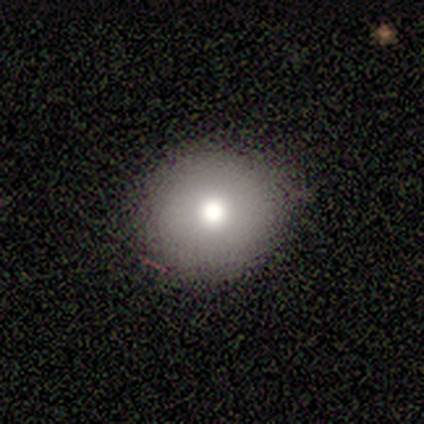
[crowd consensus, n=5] smooth_or_featured: smooth (p=0.80) [alt: star or artifact p=0.20]
how_rounded: round (p=0.50) [tied with: in between p=0.50]
merging: none (p=0.75) [alt: minor disturbance p=0.25]